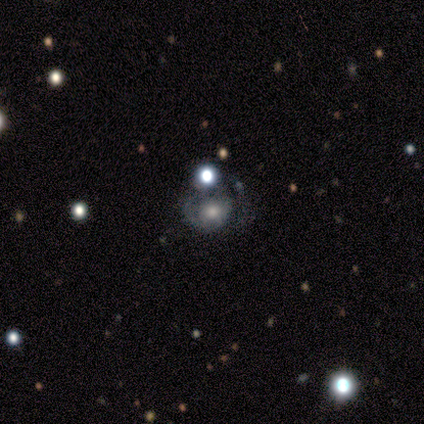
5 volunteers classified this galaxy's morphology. This is likely a smooth galaxy (60%). How rounded: likely round (67%). Merging: likely major disturbance (60%).